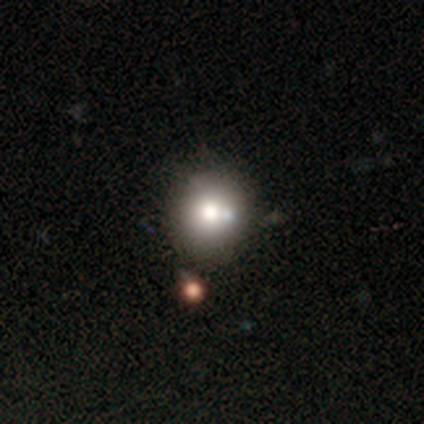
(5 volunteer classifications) Smooth or featured?
  - smooth: 80% *
  - star or artifact: 20%
  - featured or disk: 0%
How rounded?
  - round: 75% *
  - in between: 25%
  - cigar-shaped: 0%
Merging?
  - minor disturbance: 50% *
  - none: 25%
  - merger: 25%
  - major disturbance: 0%